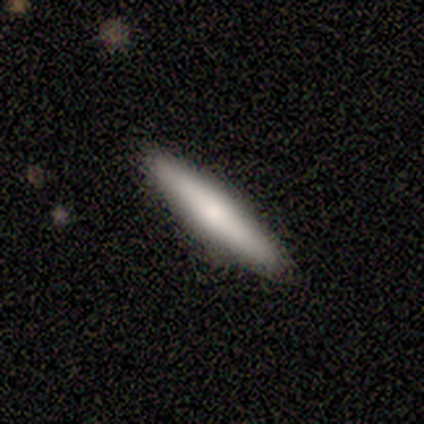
Smooth or featured?
  - smooth: 75% *
  - featured or disk: 25%
  - star or artifact: 0%
How rounded?
  - cigar-shaped: 100% *
  - round: 0%
  - in between: 0%
Merging?
  - none: 100% *
  - minor disturbance: 0%
  - major disturbance: 0%
  - merger: 0%